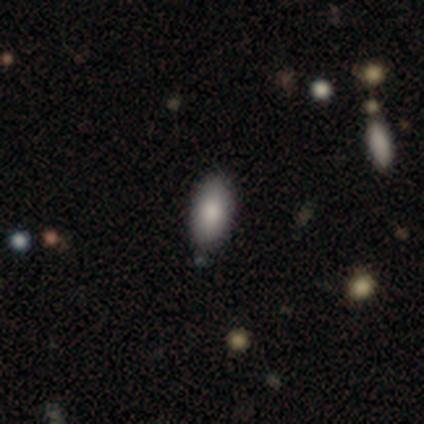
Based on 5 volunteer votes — Volunteers were most divided on "smooth or featured": smooth: 60%, star or artifact: 40%, featured or disk: 0%. More confident: how rounded — in between (100%); merging — none (100%).